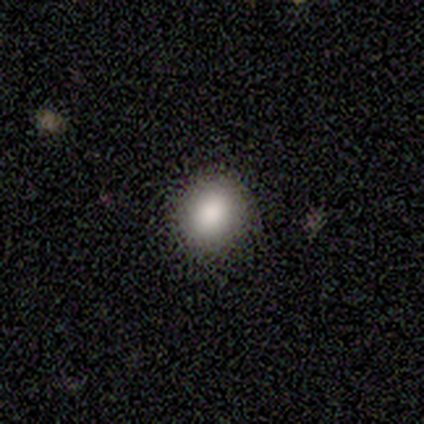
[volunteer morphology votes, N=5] A smooth galaxy with no disk features (60%) that is round (100%). Merging: none (75%).